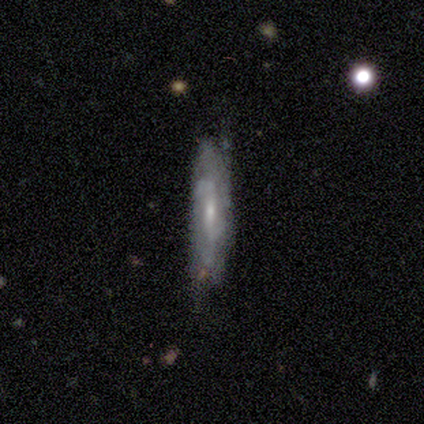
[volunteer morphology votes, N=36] Smooth or featured?
  - featured or disk: 53% *
  - smooth: 44%
  - star or artifact: 3%
Edge-on disk?
  - no: 58% *
  - yes: 42%
Bar?
  - weak: 55% *
  - strong: 36%
  - no: 9%
Spiral arms?
  - yes: 82% *
  - no: 18%
Spiral winding?
  - medium: 44% *
  - tight: 33%
  - loose: 22%
Spiral arm count?
  - 2: 44% * (tied)
  - can't tell: 44% * (tied)
  - 1: 11%
  - 3: 0%
  - 4: 0%
  - more than 4: 0%
Bulge size?
  - small: 45% *
  - moderate: 36%
  - none: 18%
  - dominant: 0%
  - large: 0%
Merging?
  - none: 66% *
  - minor disturbance: 29%
  - major disturbance: 6%
  - merger: 0%